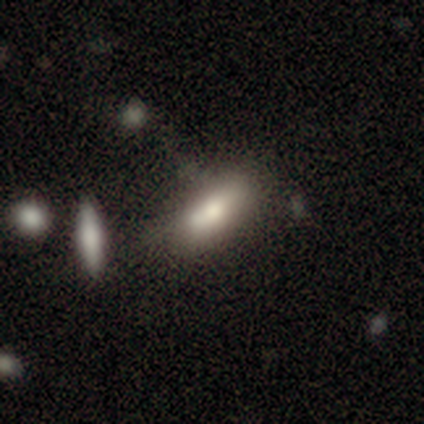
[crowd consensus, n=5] Smooth or featured? 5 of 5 (100%) said smooth. How rounded? 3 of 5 (60%) said cigar-shaped. Merging? 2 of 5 (40%, tied with merger) said none.